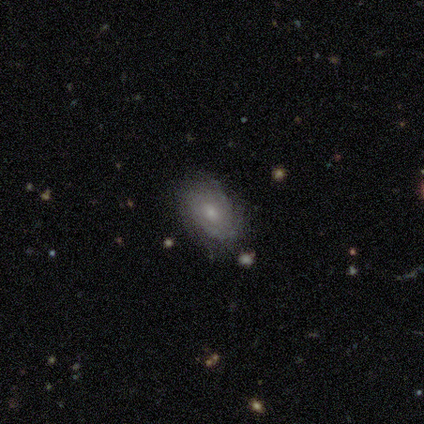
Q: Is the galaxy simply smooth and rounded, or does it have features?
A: featured or disk — 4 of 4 (100%).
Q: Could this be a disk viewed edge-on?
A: no — 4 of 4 (100%).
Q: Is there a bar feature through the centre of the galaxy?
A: no — 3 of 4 (75%).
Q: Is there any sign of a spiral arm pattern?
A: yes — 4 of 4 (100%).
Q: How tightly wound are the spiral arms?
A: medium — 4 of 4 (100%).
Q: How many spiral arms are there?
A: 2 — 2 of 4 (50%, tied with can't tell).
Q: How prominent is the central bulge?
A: moderate — 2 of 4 (50%, tied with small).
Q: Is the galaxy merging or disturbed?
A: none — 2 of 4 (50%).